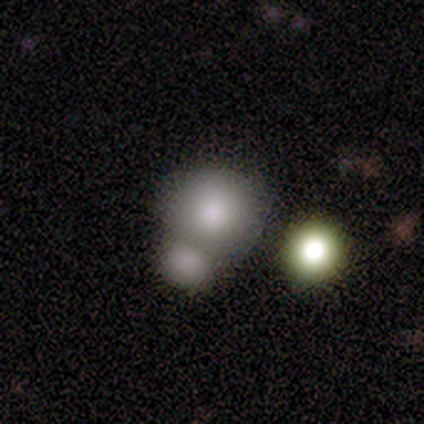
smooth_or_featured: smooth (p=0.75) [alt: star or artifact p=0.25]
how_rounded: round (p=0.83) [alt: in between p=0.17]
merging: merger (p=0.50) [alt: none p=0.33]